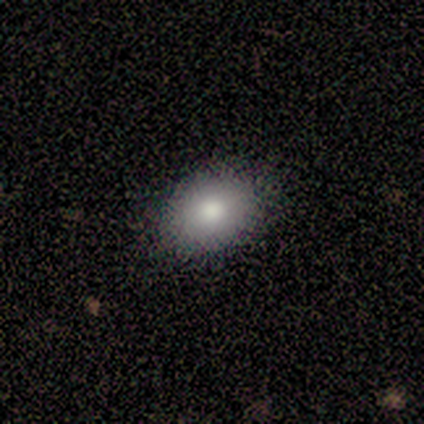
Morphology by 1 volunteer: Smooth or featured?
  - smooth: 100% *
  - featured or disk: 0%
  - star or artifact: 0%
How rounded?
  - in between: 100% *
  - round: 0%
  - cigar-shaped: 0%
Merging?
  - none: 100% *
  - minor disturbance: 0%
  - major disturbance: 0%
  - merger: 0%